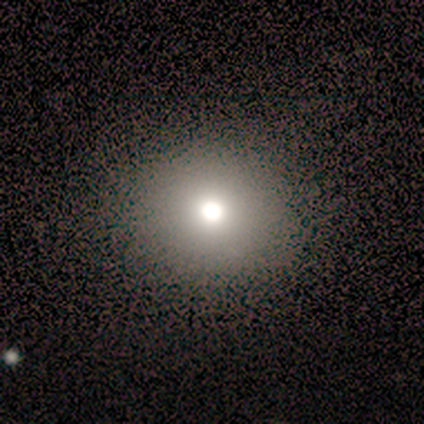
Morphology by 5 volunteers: This appears to be a smooth galaxy with no disk features (60%) that is round (67%). Merging: none (100%).